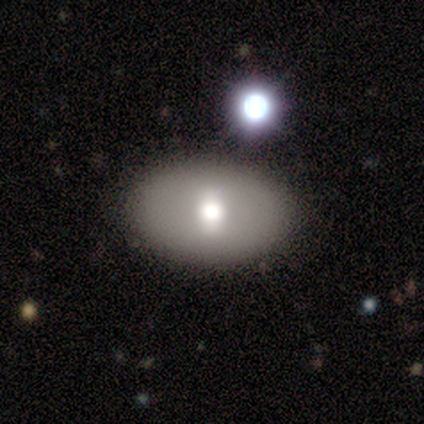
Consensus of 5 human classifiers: Smooth or featured?
  - featured or disk: 100% *
  - smooth: 0%
  - star or artifact: 0%
Edge-on disk?
  - no: 80% *
  - yes: 20%
Bar?
  - no: 50% *
  - strong: 25%
  - weak: 25%
Spiral arms?
  - no: 100% *
  - yes: 0%
Bulge size?
  - moderate: 75% *
  - small: 25%
  - dominant: 0%
  - large: 0%
  - none: 0%
Merging?
  - none: 60% *
  - merger: 40%
  - minor disturbance: 0%
  - major disturbance: 0%